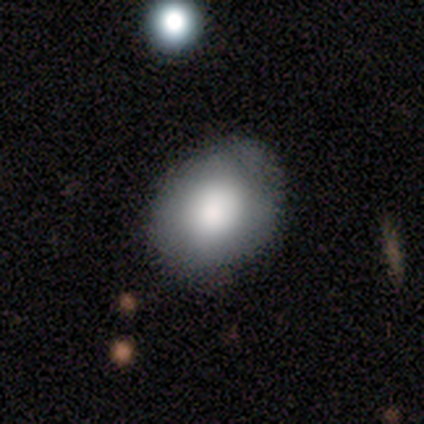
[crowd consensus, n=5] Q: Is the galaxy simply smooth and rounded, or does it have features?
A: smooth — 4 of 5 (80%).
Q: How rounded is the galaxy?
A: in between — 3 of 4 (75%).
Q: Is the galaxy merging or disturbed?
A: none — 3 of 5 (60%).